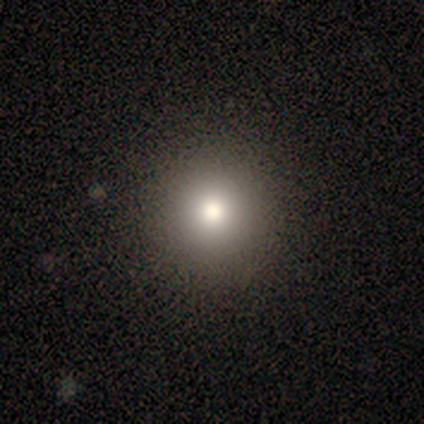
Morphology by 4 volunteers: Q: Smooth or featured?
A: smooth (75%); runner-up: star or artifact (25%)
Q: How rounded?
A: round (100%)
Q: Merging?
A: none (67%); runner-up: minor disturbance (33%)